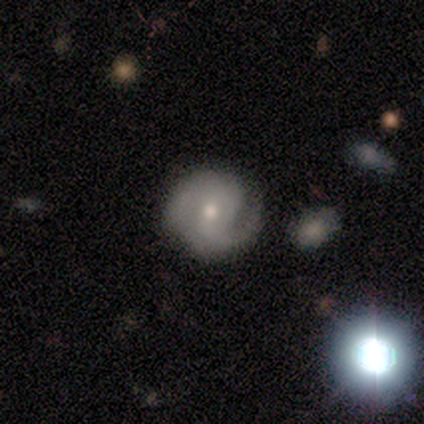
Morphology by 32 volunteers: A featured or disk galaxy (72%) with no bar (57%), 2 (95%) medium (63%) spiral arms (90%) and a moderate central bulge (52%). Merging: none (72%).